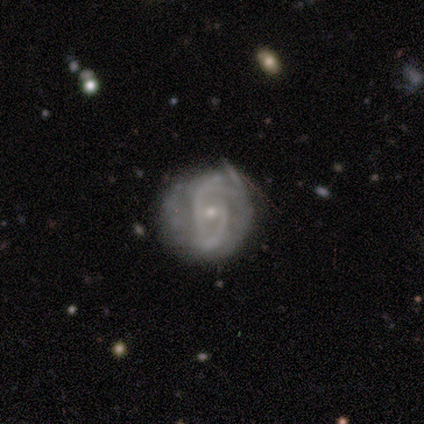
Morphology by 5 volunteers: smooth-or-featured: featured or disk: 60% | smooth: 20% | star or artifact: 20%
  disk-edge-on: no: 100% | yes: 0%
    bar: weak: 67% | strong: 33% | no: 0%
    has-spiral-arms: yes: 67% | no: 33%
      spiral-winding: tight: 50% (tied) | loose: 50% (tied) | medium: 0%
      spiral-arm-count: 2: 50% (tied) | can't tell: 50% (tied) | 1: 0% | 3: 0% | 4: 0% | more than 4: 0%
    bulge-size: small: 67% | moderate: 33% | dominant: 0% | large: 0% | none: 0%
  merging: none: 75% | minor disturbance: 25% | major disturbance: 0% | merger: 0%